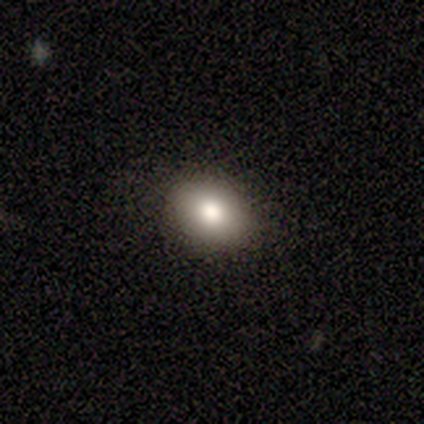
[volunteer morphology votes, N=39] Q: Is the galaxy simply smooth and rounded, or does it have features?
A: smooth — 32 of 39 (82%).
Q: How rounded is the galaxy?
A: in between — 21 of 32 (66%).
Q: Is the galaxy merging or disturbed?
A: none — 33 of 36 (92%).